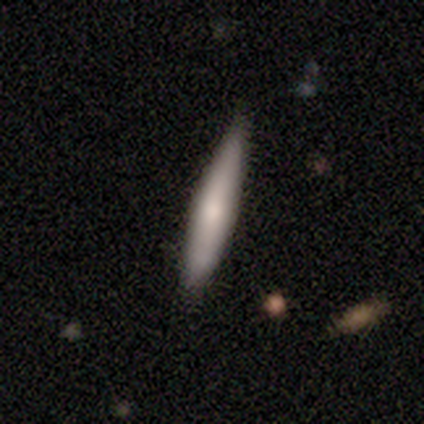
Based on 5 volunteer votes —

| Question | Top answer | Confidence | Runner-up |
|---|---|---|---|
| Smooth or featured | smooth | 80% | featured or disk (20%) |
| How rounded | cigar-shaped | 75% | in between (25%) |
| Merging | none | 80% | minor disturbance (20%) |